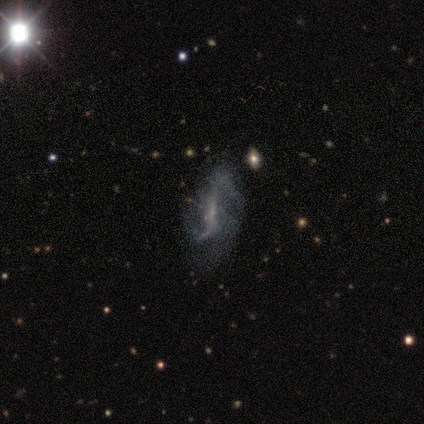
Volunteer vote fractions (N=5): A featured or disk galaxy (80%) with a strong bar (50%), 2 (100%) loose (100%) spiral arms (75%) and a small central bulge (75%). Merging: major disturbance (60%).